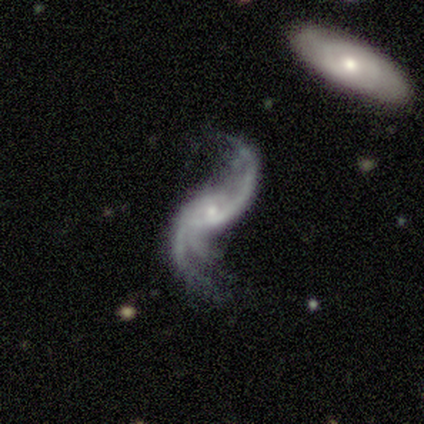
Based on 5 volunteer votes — Q: Smooth or featured?
A: featured or disk (100%)
Q: Edge-on disk?
A: no (100%)
Q: Bar?
A: no (60%); runner-up: weak (40%)
Q: Spiral arms?
A: yes (100%)
Q: Spiral winding?
A: loose (80%); runner-up: medium (20%)
Q: Spiral arm count?
A: 2 (40%); tied with: 3 (40%)
Q: Bulge size?
A: moderate (60%); runner-up: small (40%)
Q: Merging?
A: none (40%); tied with: major disturbance (40%)